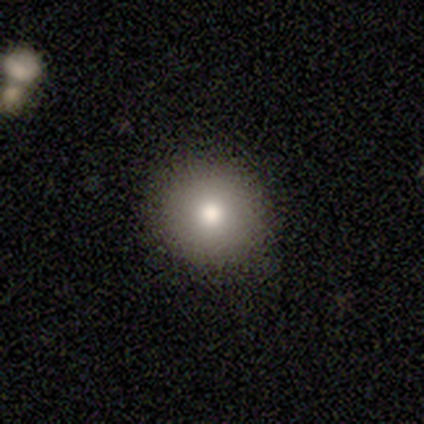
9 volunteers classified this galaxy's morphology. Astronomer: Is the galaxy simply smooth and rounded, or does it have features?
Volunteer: smooth — 78%.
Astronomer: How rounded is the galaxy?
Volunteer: round — 100%.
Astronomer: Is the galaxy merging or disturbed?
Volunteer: none — 75%.